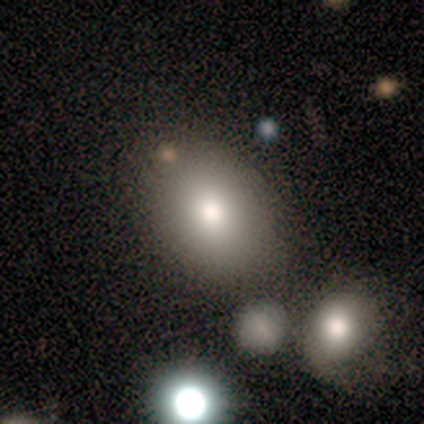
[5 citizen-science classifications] A smooth galaxy with no disk features (60%) that is in between round and cigar-shaped (67%). Merging: none (50%, tied with merger).